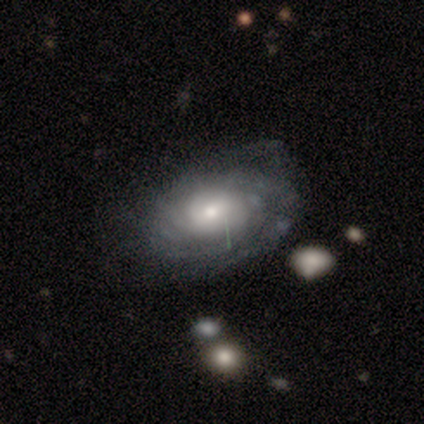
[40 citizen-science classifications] Smooth or featured? featured or disk (82%)
Edge-on disk? no (97%)
Bar? no (72%)
Spiral arms? yes (97%)
Spiral winding? tight (68%)
Spiral arm count? can't tell (87%)
Bulge size? moderate (50%)
Merging? none (42%)